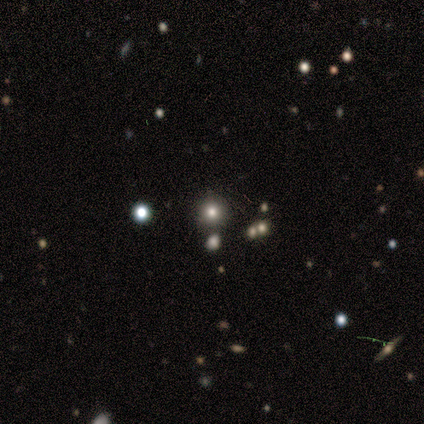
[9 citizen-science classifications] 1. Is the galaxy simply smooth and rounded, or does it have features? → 67% smooth, 22% star or artifact, 11% featured or disk.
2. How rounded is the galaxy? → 100% round, 0% in between, 0% cigar-shaped.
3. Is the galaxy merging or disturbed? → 71% none, 14% major disturbance, 14% merger, 0% minor disturbance.